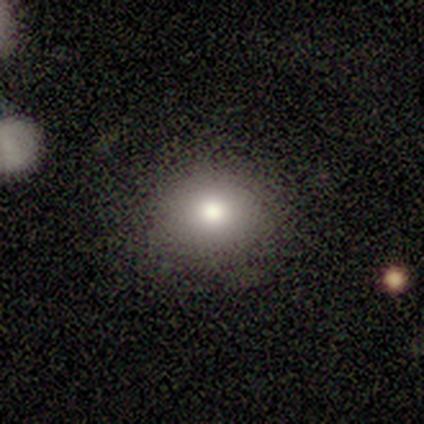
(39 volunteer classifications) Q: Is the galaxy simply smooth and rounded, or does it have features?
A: smooth — 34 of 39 (87%).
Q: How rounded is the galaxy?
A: round — 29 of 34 (85%).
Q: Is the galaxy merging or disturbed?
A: none — 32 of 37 (86%).